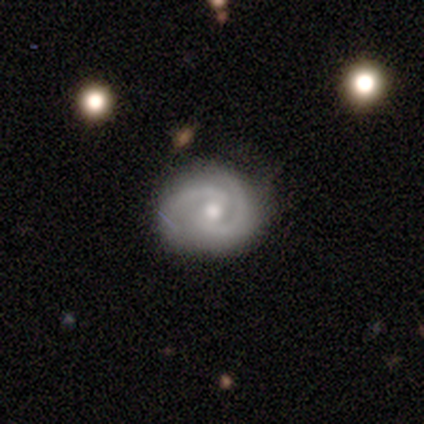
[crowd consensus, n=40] smooth-or-featured: featured or disk: 90% | smooth: 5% | star or artifact: 5%
  disk-edge-on: no: 94% | yes: 6%
    bar: no: 50% | weak: 41% | strong: 9%
    has-spiral-arms: yes: 97% | no: 3%
      spiral-winding: tight: 52% | medium: 33% | loose: 15%
      spiral-arm-count: 2: 82% | can't tell: 9% | 1: 3% | 3: 3% | more than 4: 3% | 4: 0%
    bulge-size: moderate: 59% | small: 38% | none: 3% | dominant: 0% | large: 0%
  merging: none: 76% | minor disturbance: 16% | major disturbance: 5% | merger: 3%